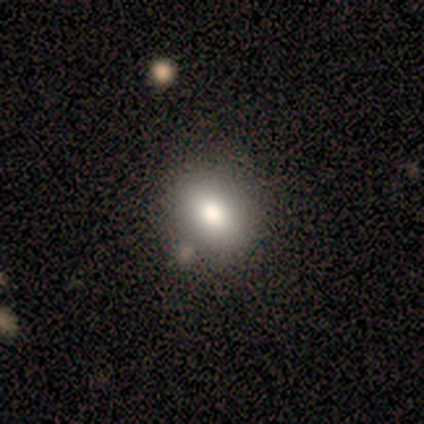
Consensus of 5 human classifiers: Smooth or featured? smooth (60%)
How rounded? round (67%)
Merging? none (100%)